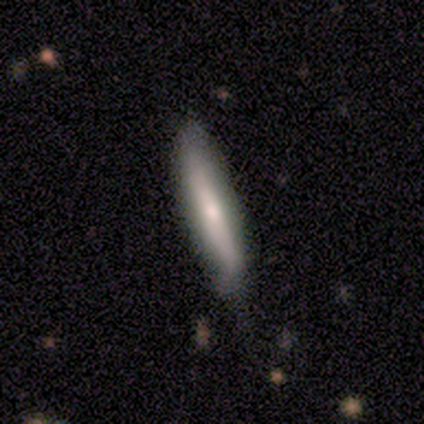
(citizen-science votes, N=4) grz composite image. It shows a smooth galaxy with no disk features (50%) that is cigar-shaped (100%). Merging: none (100%).